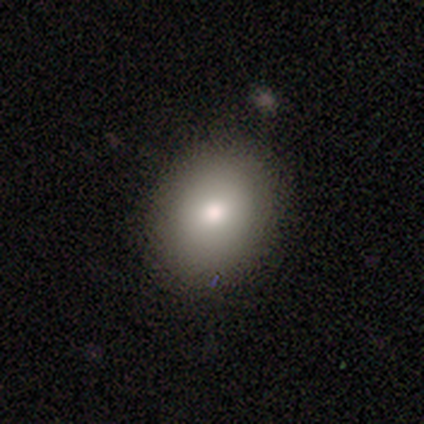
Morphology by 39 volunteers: A smooth galaxy with no disk features (90%) that is round (49%). Merging: none (64%).